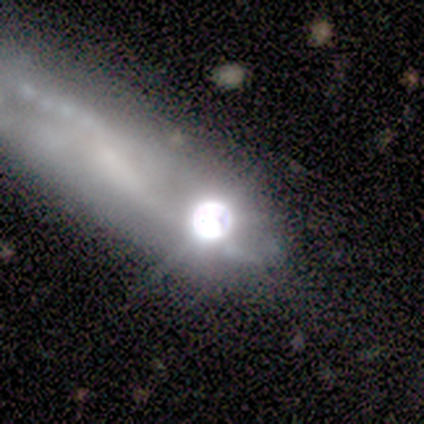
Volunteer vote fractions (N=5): Overall: star or artifact (60%; smooth 20%).